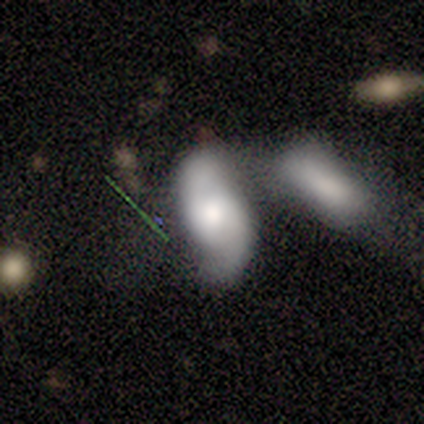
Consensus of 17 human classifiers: featured or disk 71%, smooth 24%, star or artifact 6%. Down the decision tree: edge-on disk — no (92%); bar — weak (64%); spiral arms — yes (91%); spiral arm count — 2 (80%); spiral winding — loose (70%); bulge size — moderate (82%); merging — merger (56%).